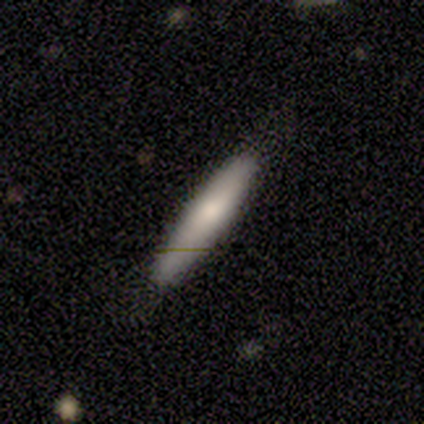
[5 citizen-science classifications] Smooth or featured? 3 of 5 (60%) said smooth. How rounded? 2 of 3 (67%) said cigar-shaped. Merging? 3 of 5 (60%) said none.